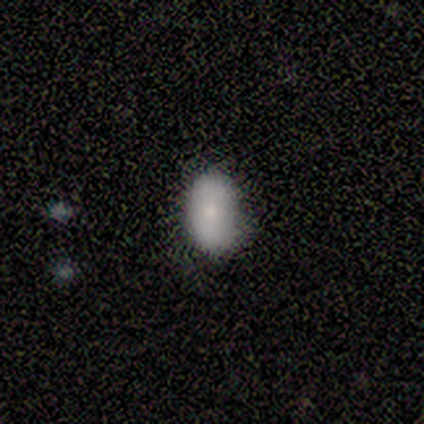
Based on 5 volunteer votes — Smooth or featured: smooth — 60% (featured or disk — 40%)
How rounded: in between — 100%
Merging: minor disturbance — 60% (none — 40%)